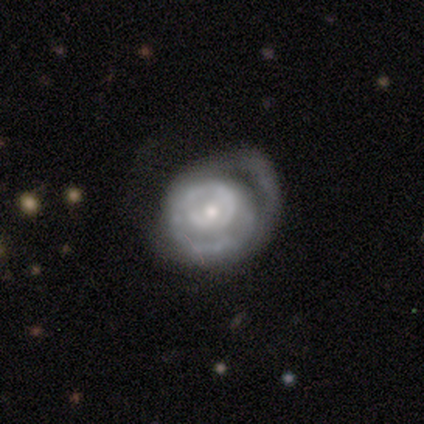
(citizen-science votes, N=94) Overall: featured or disk (80%). Edge-on disk: no (95%). Bar: no (77%). Spiral arms: yes (73%). Spiral arm count: can't tell (48%; 1 29%). Spiral winding: tight (71%). Bulge size: small (63%; moderate 34%). Merging: none (34%; major disturbance 33%).